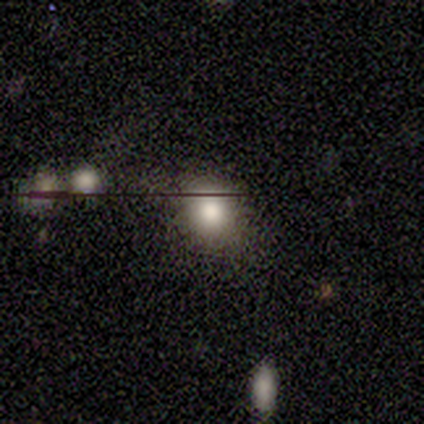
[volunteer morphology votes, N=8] A smooth galaxy with no disk features (75%) that is round (83%).

Vote fractions:
- Smooth or featured? smooth: 75% / featured or disk: 12% / star or artifact: 12%
- How rounded? round: 83% / in between: 17% / cigar-shaped: 0%
- Merging? minor disturbance: 43% / none: 29% / major disturbance: 29% / merger: 0%